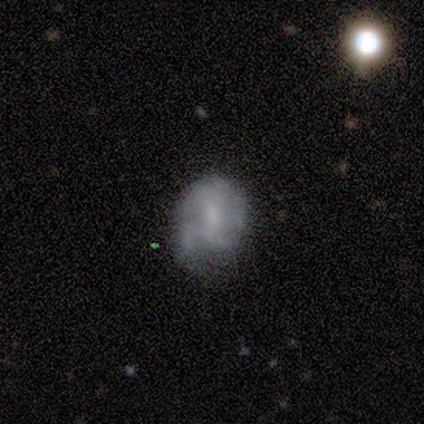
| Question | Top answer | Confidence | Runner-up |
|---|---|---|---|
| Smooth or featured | featured or disk | 80% | smooth (20%) |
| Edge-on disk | no | 100% | — |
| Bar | weak | 50% | tied: no (50%) |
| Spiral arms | no | 75% | yes (25%) |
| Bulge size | none | 75% | small (25%) |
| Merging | none | 40% | tied: minor disturbance (40%) |